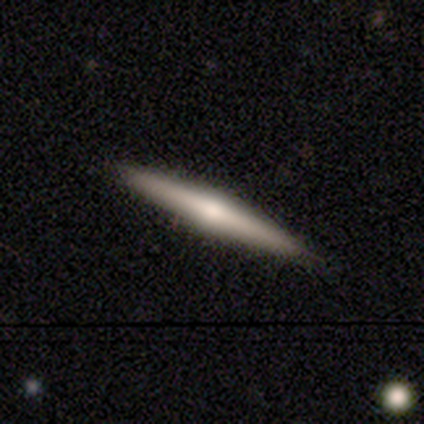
Smooth or featured? smooth (67%)
How rounded? cigar-shaped (100%)
Merging? none (100%)